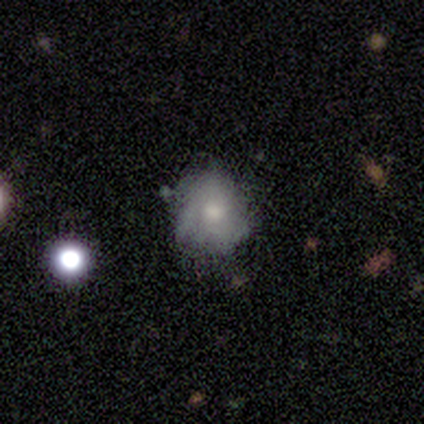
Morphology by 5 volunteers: type=smooth (80%); roundness=round (100%); merging=none (60%).